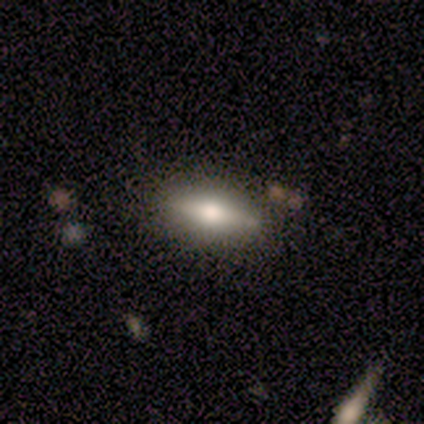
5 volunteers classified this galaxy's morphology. Q: Smooth or featured?
A: featured or disk (80%); runner-up: smooth (20%)
Q: Edge-on disk?
A: yes (100%)
Q: Edge-on bulge?
A: rounded (75%); runner-up: boxy (25%)
Q: Merging?
A: none (100%)